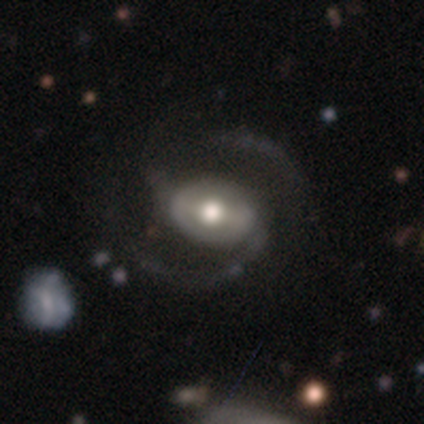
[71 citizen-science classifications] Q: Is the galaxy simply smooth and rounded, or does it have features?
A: featured or disk — 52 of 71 (73%).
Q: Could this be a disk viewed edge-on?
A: no — 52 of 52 (100%).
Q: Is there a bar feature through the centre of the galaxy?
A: weak — 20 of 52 (38%).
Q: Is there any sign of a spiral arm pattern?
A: yes — 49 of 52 (94%).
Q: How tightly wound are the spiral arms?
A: medium — 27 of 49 (55%).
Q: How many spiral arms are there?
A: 2 — 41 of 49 (84%).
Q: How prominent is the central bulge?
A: moderate — 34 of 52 (65%).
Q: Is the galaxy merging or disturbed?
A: none — 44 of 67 (66%).